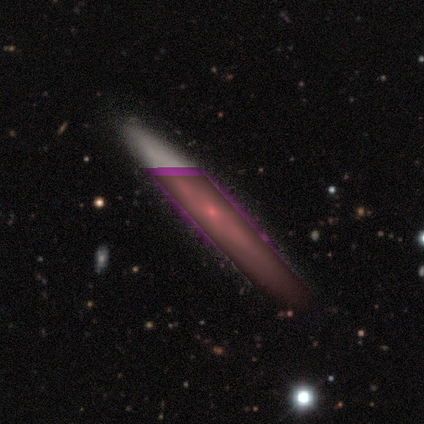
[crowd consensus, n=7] Morphology: type=featured or disk (57%); edge-on=yes (100%); edge-on bulge=rounded (75%); merging=none (83%).